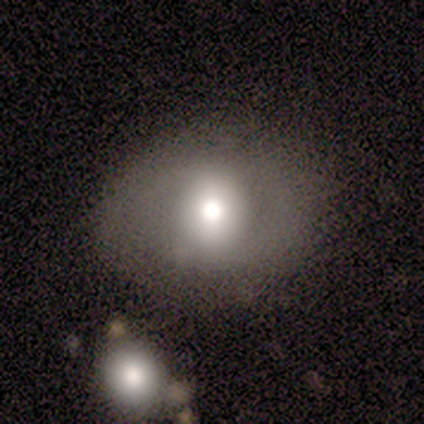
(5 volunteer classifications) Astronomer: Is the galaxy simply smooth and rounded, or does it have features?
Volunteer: smooth — 100%.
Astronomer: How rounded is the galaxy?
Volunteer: round — 80%.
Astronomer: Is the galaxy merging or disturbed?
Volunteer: none — 60%.